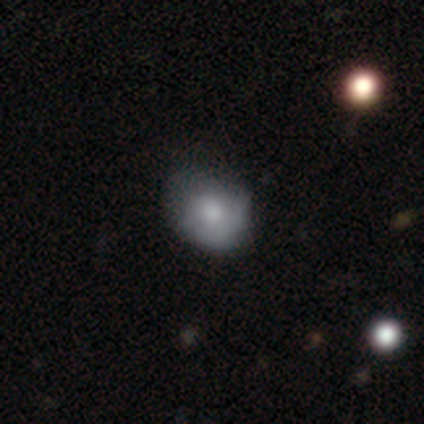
Smooth or featured?
  - smooth: 61% *
  - featured or disk: 29%
  - star or artifact: 11%
How rounded?
  - round: 61% *
  - in between: 35%
  - cigar-shaped: 4%
Merging?
  - none: 68% *
  - minor disturbance: 18%
  - major disturbance: 15%
  - merger: 0%